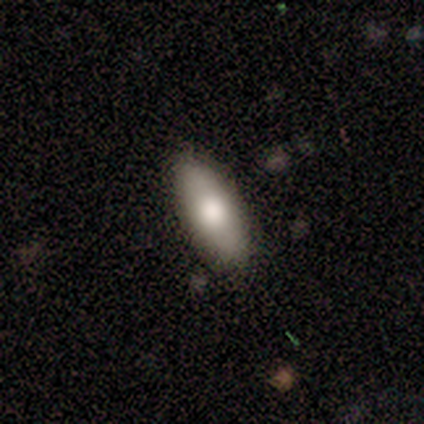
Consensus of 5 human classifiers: This is clearly a smooth galaxy (80%). How rounded: clearly in between (100%). Merging: clearly none (100%).